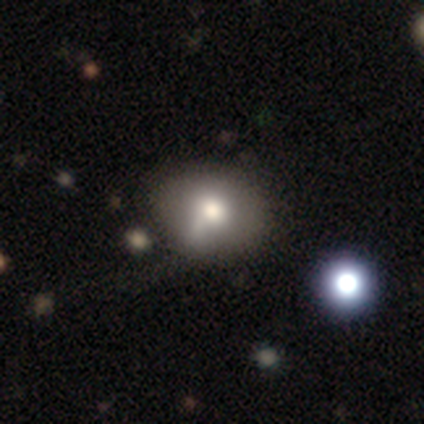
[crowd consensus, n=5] Smooth or featured: smooth — 80% (star or artifact — 20%)
How rounded: in between — 75% (round — 25%)
Merging: minor disturbance — 75% (none — 25%)